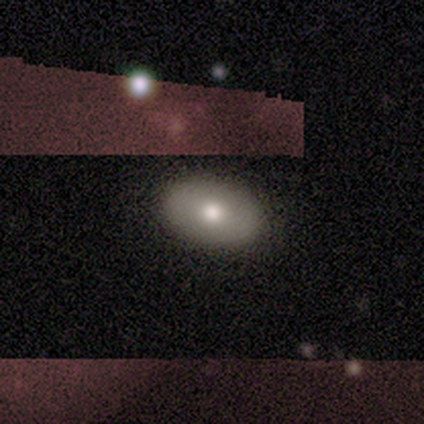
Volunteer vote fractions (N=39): Volunteers were most divided on "smooth or featured": smooth: 64%, featured or disk: 26%, star or artifact: 10%. More confident: merging — none (83%); how rounded — in between (80%).